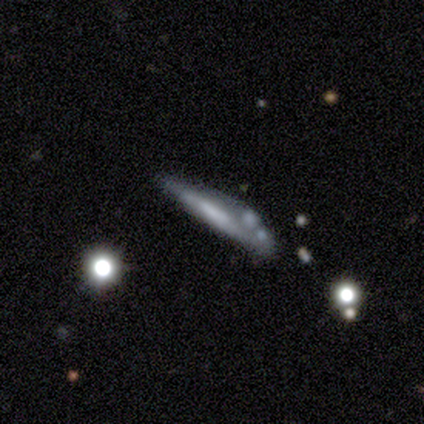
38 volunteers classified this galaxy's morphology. Overall: featured or disk (50%; smooth 47%). Edge-on disk: yes (100%). Edge-on bulge: none (58%; boxy 21%). Merging: none (43%; minor disturbance 41%).